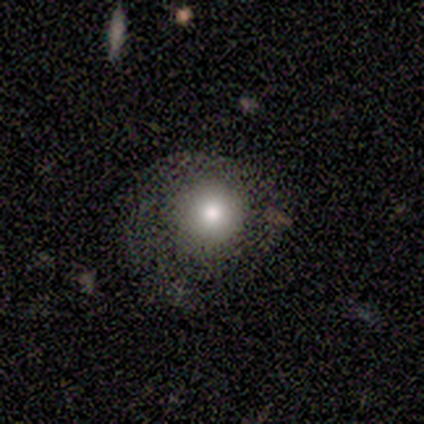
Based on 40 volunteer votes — Smooth or featured?
  - smooth: 52% *
  - featured or disk: 32%
  - star or artifact: 15%
How rounded?
  - round: 81% *
  - in between: 19%
  - cigar-shaped: 0%
Merging?
  - none: 50% *
  - major disturbance: 29%
  - minor disturbance: 18%
  - merger: 3%